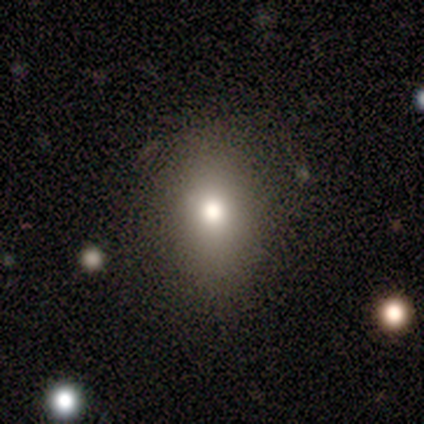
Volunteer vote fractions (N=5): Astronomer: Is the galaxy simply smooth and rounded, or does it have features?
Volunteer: smooth — 100%.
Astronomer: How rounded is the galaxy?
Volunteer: round — 60% (runner-up: in between, 40%).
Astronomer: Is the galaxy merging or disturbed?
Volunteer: none — 80%.